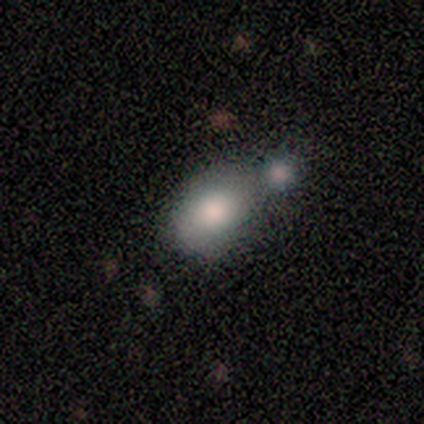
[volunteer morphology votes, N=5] smooth-or-featured: smooth: 80% | star or artifact: 20% | featured or disk: 0%
  how-rounded: in between: 100% | round: 0% | cigar-shaped: 0%
  merging: merger: 75% | none: 25% | minor disturbance: 0% | major disturbance: 0%